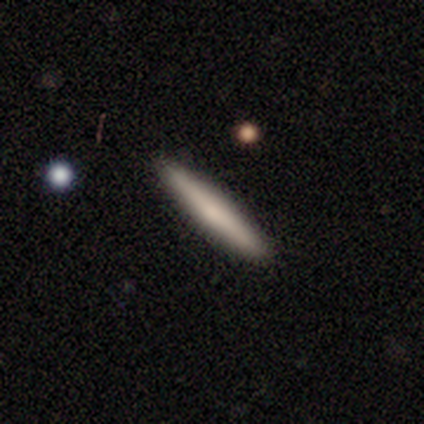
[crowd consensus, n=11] Smooth or featured: smooth — 55% (featured or disk — 36%)
How rounded: cigar-shaped — 100%
Merging: none — 80% (minor disturbance — 20%)